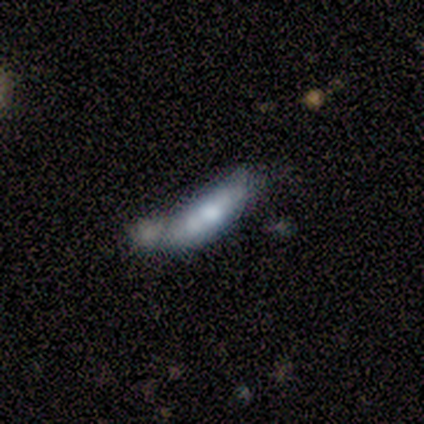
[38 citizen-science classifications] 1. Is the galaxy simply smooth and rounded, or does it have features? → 50% smooth, 47% featured or disk, 3% star or artifact.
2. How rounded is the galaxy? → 53% cigar-shaped, 47% in between, 0% round.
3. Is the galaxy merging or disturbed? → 49% merger, 24% none, 19% minor disturbance, 8% major disturbance.